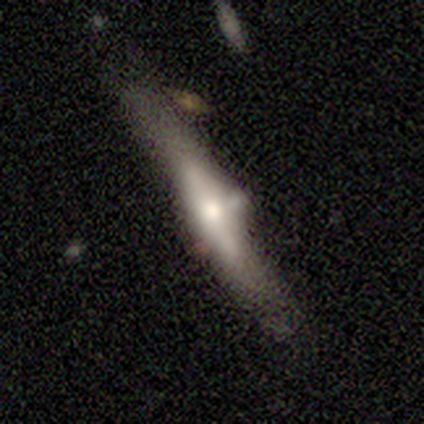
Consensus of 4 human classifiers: featured or disk 100%, smooth 0%, star or artifact 0%. Down the decision tree: edge-on disk — yes (100%); edge-on bulge — rounded (100%); merging — minor disturbance (50%).